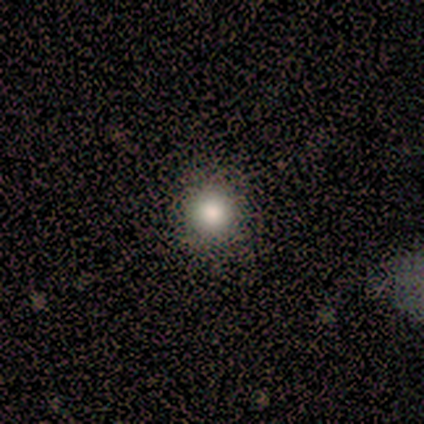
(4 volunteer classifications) Morphology: type=smooth (50%, tied with star or artifact); roundness=round (100%); merging=none (100%).